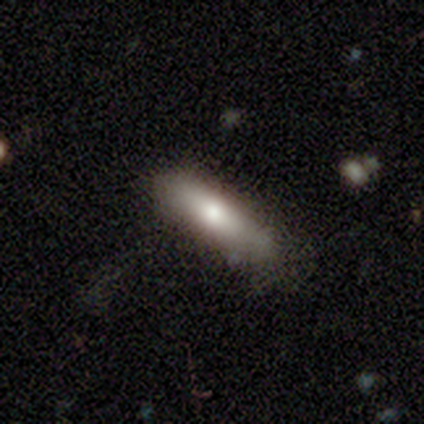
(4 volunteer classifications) smooth_or_featured: smooth (p=0.50) [alt: featured or disk p=0.25]
how_rounded: in between (p=0.50) [tied with: cigar-shaped p=0.50]
merging: none (p=1.00)